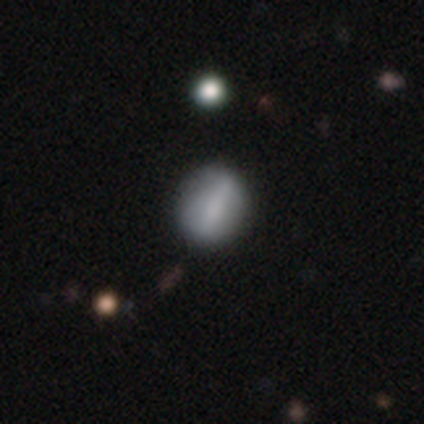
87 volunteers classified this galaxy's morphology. smooth_or_featured: smooth (p=0.62) [alt: featured or disk p=0.32]
how_rounded: round (p=0.59) [alt: in between p=0.39]
merging: none (p=0.85) [alt: minor disturbance p=0.11]